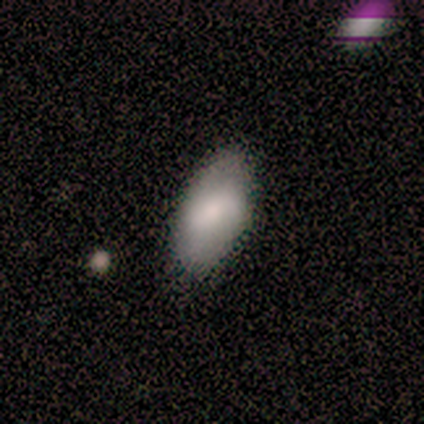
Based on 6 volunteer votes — Volunteers were most divided on "smooth or featured": smooth: 83%, featured or disk: 17%, star or artifact: 0%. More confident: how rounded — in between (100%); merging — none (83%).